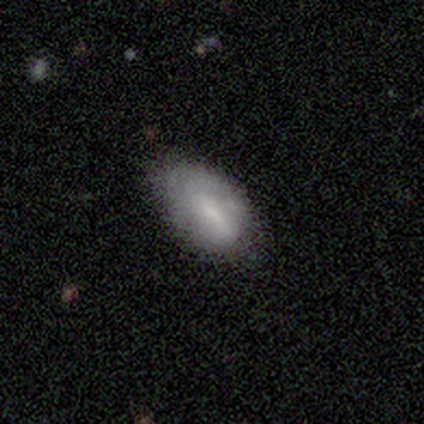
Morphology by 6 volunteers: A smooth galaxy with no disk features (67%) that is in between round and cigar-shaped (100%). Merging: none (50%, tied with minor disturbance).